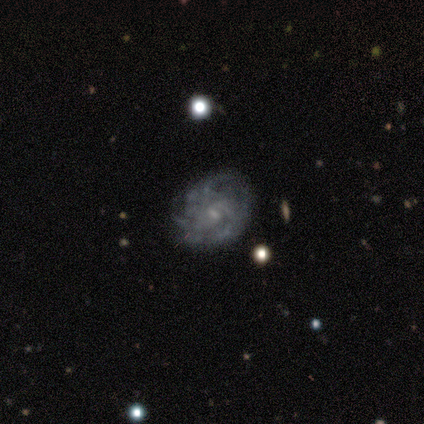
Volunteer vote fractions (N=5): featured or disk 100%, smooth 0%, star or artifact 0%. Down the decision tree: edge-on disk — no (100%); bar — weak (60%); spiral arms — yes (80%); spiral arm count — 3 (50%); spiral winding — loose (50%); bulge size — small (60%); merging — none (80%).